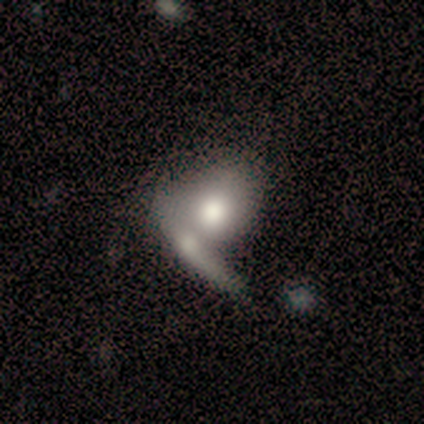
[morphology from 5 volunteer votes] A smooth galaxy with no disk features (80%) that is round (50%, tied with in between). Merging: merger (100%).